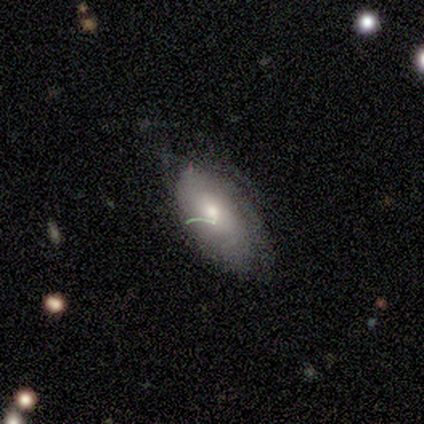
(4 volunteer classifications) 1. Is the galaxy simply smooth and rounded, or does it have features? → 50% smooth, 25% featured or disk, 25% star or artifact.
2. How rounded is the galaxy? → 100% in between, 0% round, 0% cigar-shaped.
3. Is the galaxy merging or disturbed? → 67% major disturbance, 33% none, 0% minor disturbance, 0% merger.